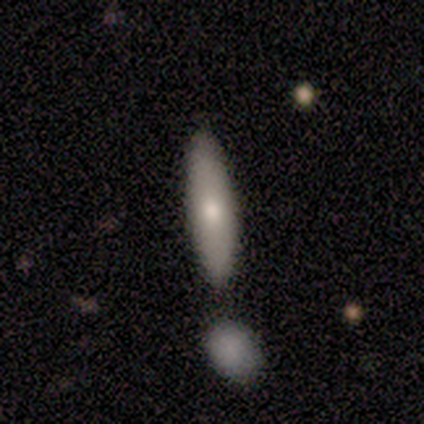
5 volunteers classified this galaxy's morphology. Overall: smooth (80%). How rounded: cigar-shaped (100%). Merging: none (60%; merger 40%).